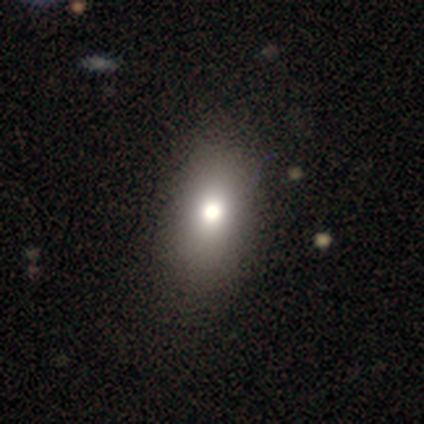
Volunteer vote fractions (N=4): smooth_or_featured: smooth (p=0.50) [alt: featured or disk p=0.25]
how_rounded: in between (p=0.50) [tied with: cigar-shaped p=0.50]
merging: none (p=0.67) [alt: minor disturbance p=0.33]